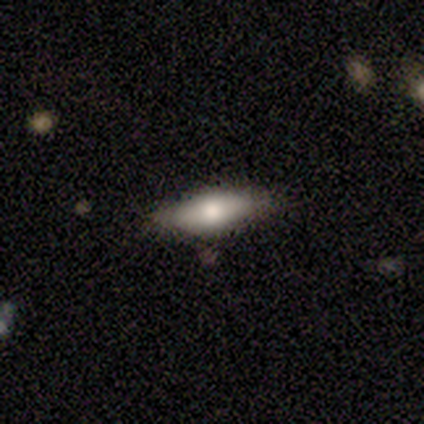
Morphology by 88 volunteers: Volunteers were most divided on "how rounded": in between: 64%, cigar-shaped: 36%, round: 0%. More confident: merging — none (84%); smooth or featured — smooth (66%).